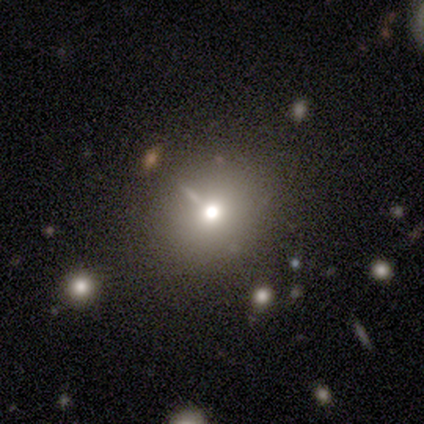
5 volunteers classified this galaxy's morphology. Smooth or featured? smooth (80%)
How rounded? round (75%)
Merging? none (50%, tied with minor disturbance)